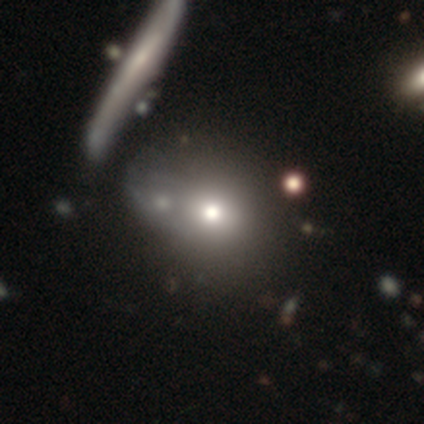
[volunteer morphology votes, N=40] Overall: smooth (65%; featured or disk 30%). How rounded: round (73%). Merging: merger (32%; none 29%).